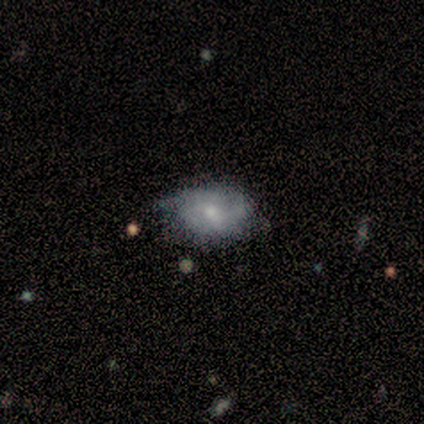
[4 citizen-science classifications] Morphology: type=smooth (50%, tied with featured or disk); roundness=in between (100%); merging=none (100%).